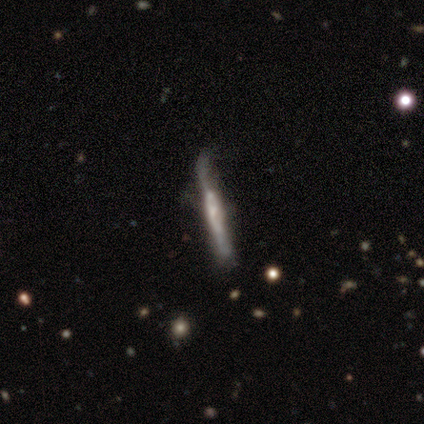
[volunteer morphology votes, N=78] Q: Smooth or featured?
A: featured or disk (74%); runner-up: smooth (23%)
Q: Edge-on disk?
A: yes (93%); runner-up: no (7%)
Q: Edge-on bulge?
A: boxy (39%); runner-up: none (33%)
Q: Merging?
A: none (29%); runner-up: minor disturbance (16%)